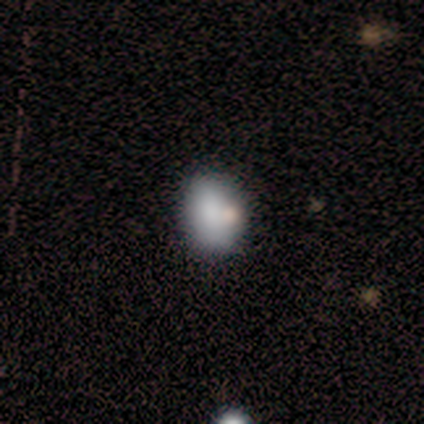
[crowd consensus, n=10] Morphology: type=smooth (70%); roundness=round (57%); merging=none (50%).